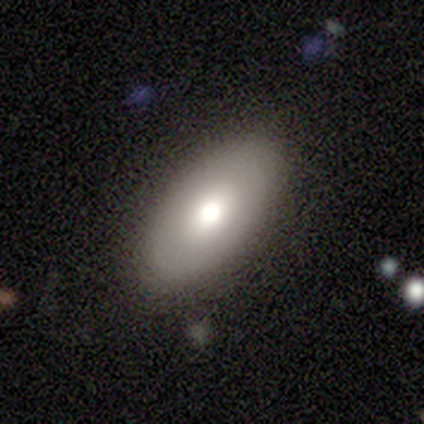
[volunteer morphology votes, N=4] This appears to be a smooth galaxy with no disk features (75%) that is in between round and cigar-shaped (100%). Merging: none (100%).